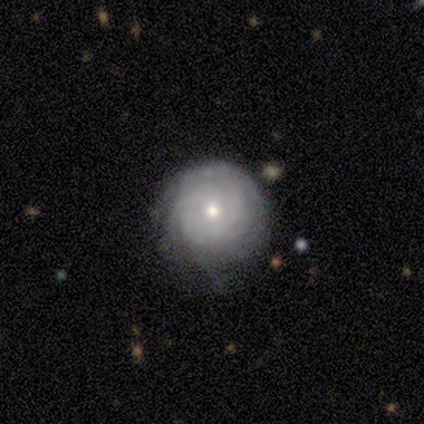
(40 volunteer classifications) Smooth or featured?
  - featured or disk: 90% *
  - smooth: 8%
  - star or artifact: 2%
Edge-on disk?
  - no: 100% *
  - yes: 0%
Bar?
  - no: 78% *
  - weak: 19%
  - strong: 3%
Spiral arms?
  - yes: 97% *
  - no: 3%
Spiral winding?
  - tight: 89% *
  - medium: 11%
  - loose: 0%
Spiral arm count?
  - can't tell: 54% *
  - 3: 29%
  - 4: 9%
  - more than 4: 9%
  - 1: 0%
  - 2: 0%
Bulge size?
  - small: 50% *
  - moderate: 47%
  - large: 3%
  - dominant: 0%
  - none: 0%
Merging?
  - none: 62% *
  - minor disturbance: 26%
  - major disturbance: 10%
  - merger: 3%